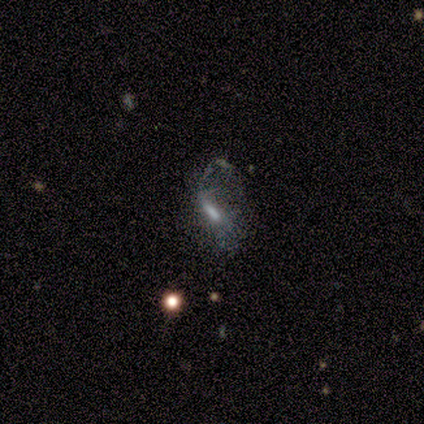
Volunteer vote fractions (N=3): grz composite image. It shows a featured or disk galaxy (100%) with no bar (100%), no spiral arms (100%) and a small central bulge (50%, tied with none). Merging: none (67%).